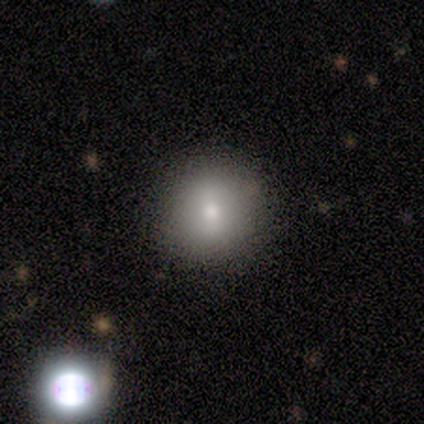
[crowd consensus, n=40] Overall: smooth (80%). How rounded: round (94%). Merging: none (85%).